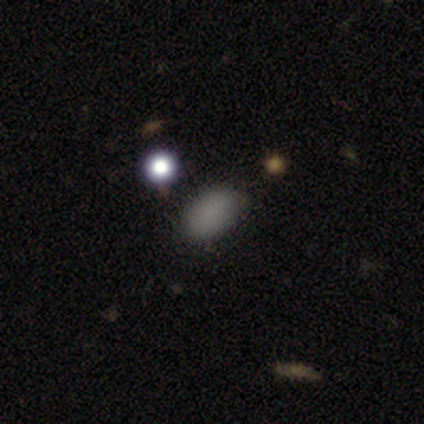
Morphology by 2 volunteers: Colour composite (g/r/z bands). It shows a smooth galaxy with no disk features (100%) that is round (50%, tied with in between). Merging: none (100%).